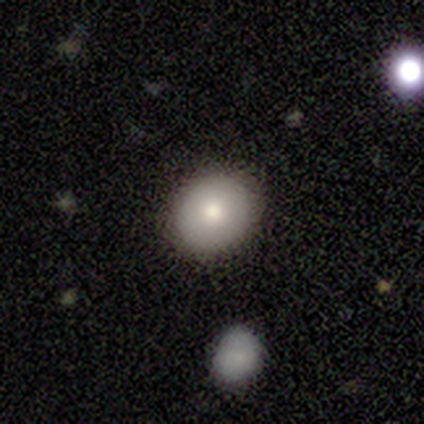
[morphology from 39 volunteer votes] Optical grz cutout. It shows a smooth galaxy with no disk features (82%) that is round (59%). Merging: none (86%).